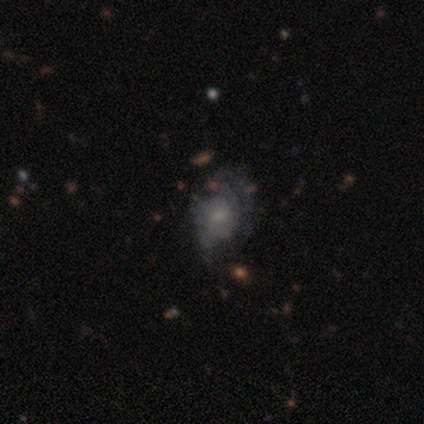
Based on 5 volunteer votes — Morphology: type=featured or disk (60%); edge-on=no (100%); bar=no (100%); spiral arms=no (67%); bulge=moderate (67%); merging=minor disturbance (40%, tied with major disturbance).